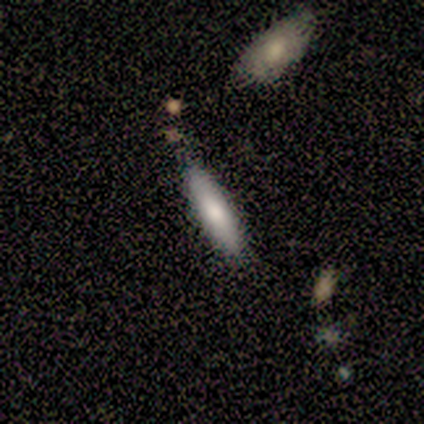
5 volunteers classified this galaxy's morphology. smooth 60%, featured or disk 20%, star or artifact 20%. Down the decision tree: how rounded — cigar-shaped (67%); merging — none (75%).